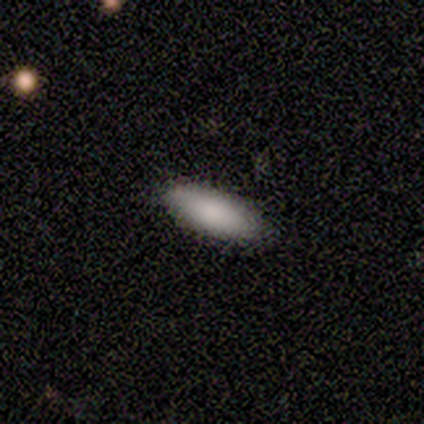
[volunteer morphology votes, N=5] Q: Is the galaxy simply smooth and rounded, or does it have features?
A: smooth — 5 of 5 (100%).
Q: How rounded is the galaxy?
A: in between — 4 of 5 (80%).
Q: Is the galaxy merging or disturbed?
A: none — 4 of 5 (80%).